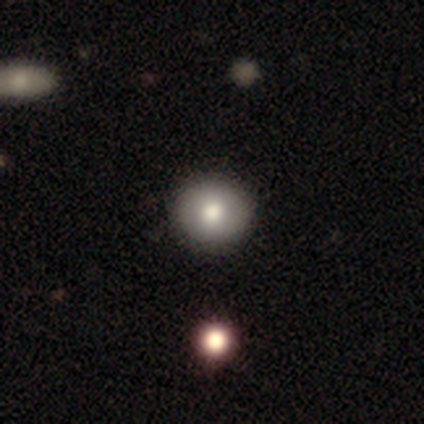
Overall: smooth (87%). How rounded: round (79%). Merging: none (73%).